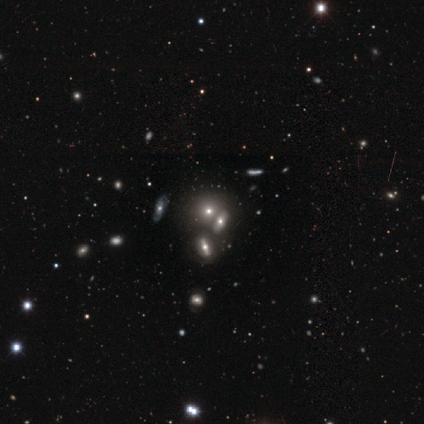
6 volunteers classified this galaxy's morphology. smooth_or_featured: smooth (p=0.67) [alt: featured or disk p=0.17]
how_rounded: cigar-shaped (p=0.50) [alt: round p=0.25]
merging: none (p=0.40) [tied with: merger p=0.40]